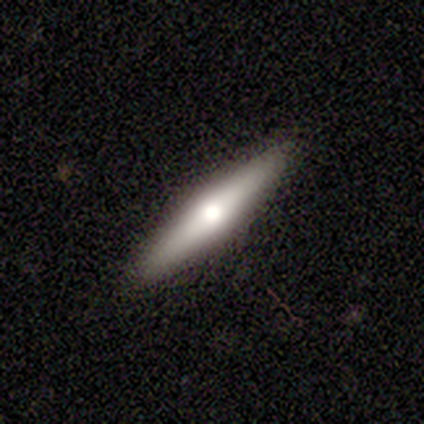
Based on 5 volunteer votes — Q: Smooth or featured?
A: featured or disk (80%); runner-up: smooth (20%)
Q: Edge-on disk?
A: yes (100%)
Q: Edge-on bulge?
A: rounded (75%); runner-up: none (25%)
Q: Merging?
A: none (100%)